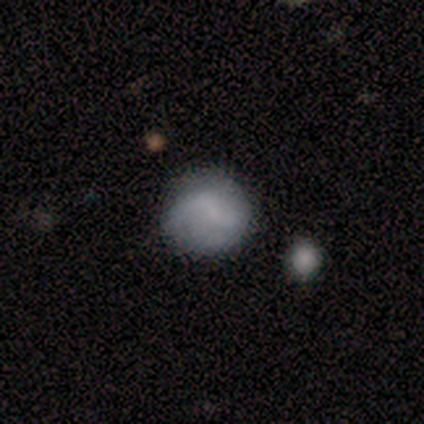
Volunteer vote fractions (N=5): This appears to be a smooth galaxy with no disk features (40%, tied with featured or disk) that is round (100%). Merging: none (100%).